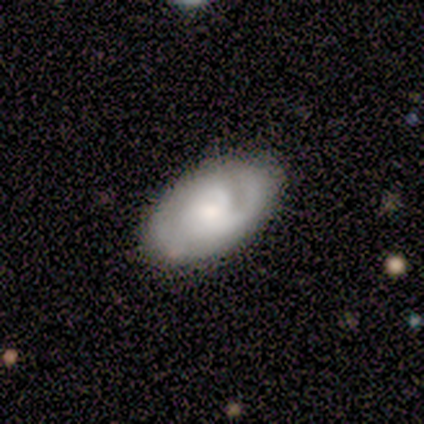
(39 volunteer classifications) Smooth or featured: featured or disk — 64% (smooth — 31%)
Edge-on disk: no — 96% (yes — 4%)
Bar: no — 75% (weak — 21%)
Spiral arms: yes — 88% (no — 12%)
Spiral winding: tight — 52% (medium — 29%)
Spiral arm count: 2 — 52% (can't tell — 24%)
Bulge size: small — 38% (moderate — 33%)
Merging: none — 76% (minor disturbance — 19%)